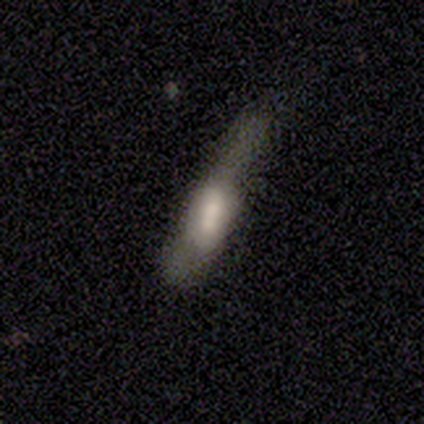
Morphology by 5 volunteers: Smooth or featured? 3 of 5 (60%) said featured or disk. Edge-on disk? 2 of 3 (67%) said no. Bar? 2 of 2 (100%) said no. Spiral arms? 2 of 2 (100%) said no. Bulge size? 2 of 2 (100%) said none. Merging? 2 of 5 (40%, tied with major disturbance) said minor disturbance.